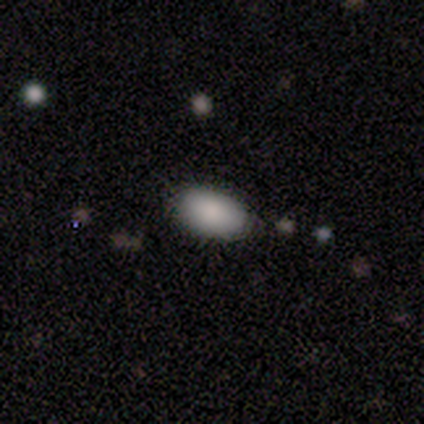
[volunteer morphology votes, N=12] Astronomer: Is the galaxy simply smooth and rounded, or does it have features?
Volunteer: smooth — 92%.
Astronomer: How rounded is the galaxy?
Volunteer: in between — 100%.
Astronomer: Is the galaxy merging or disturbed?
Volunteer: none — 82%.